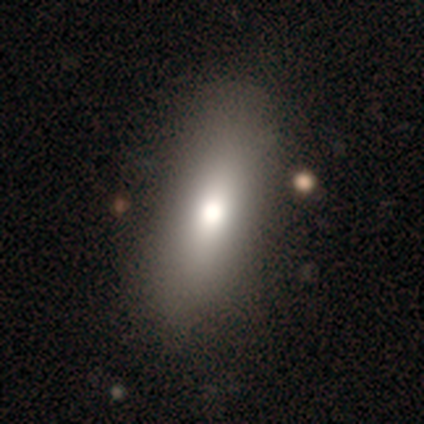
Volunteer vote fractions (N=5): Volunteers were most divided on "smooth or featured" (2-way tie): smooth: 40%, star or artifact: 40%, featured or disk: 20%; "how rounded" (2-way tie): in between: 50%, cigar-shaped: 50%, round: 0%. More confident: merging — none (100%).